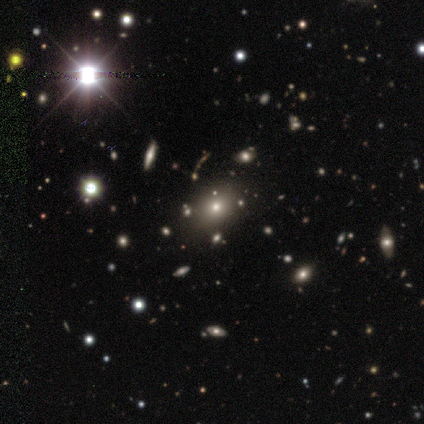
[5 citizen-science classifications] star or artifact 60%, smooth 20%, featured or disk 20%.